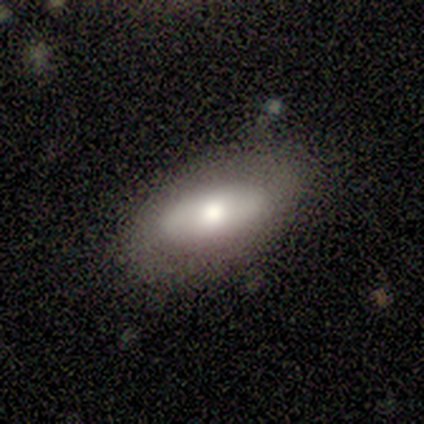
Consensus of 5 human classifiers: Smooth or featured? smooth (60%)
How rounded? in between (67%)
Merging? none (100%)